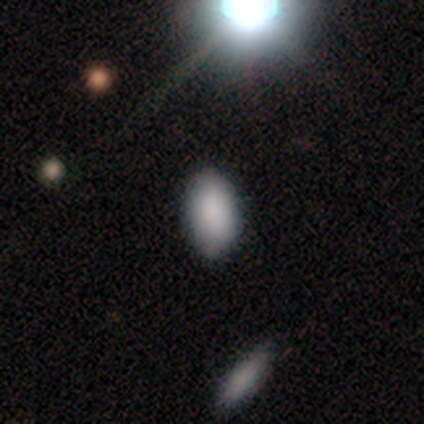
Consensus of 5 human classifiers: Smooth or featured? smooth (100%)
How rounded? in between (80%)
Merging? none (60%)